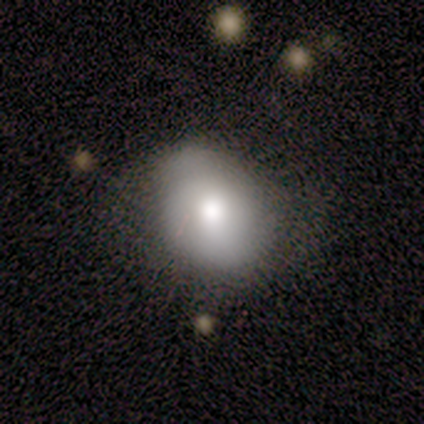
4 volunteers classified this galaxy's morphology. smooth_or_featured: smooth (p=0.75) [alt: featured or disk p=0.25]
how_rounded: round (p=0.67) [alt: in between p=0.33]
merging: none (p=0.50) [tied with: major disturbance p=0.50]